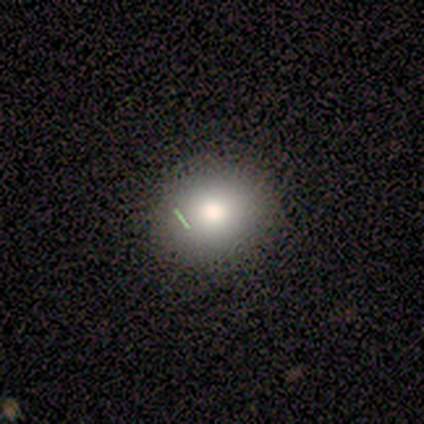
Smooth or featured? 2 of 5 (40%, tied with featured or disk) said smooth. How rounded? 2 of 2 (100%) said round. Merging? 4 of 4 (100%) said none.